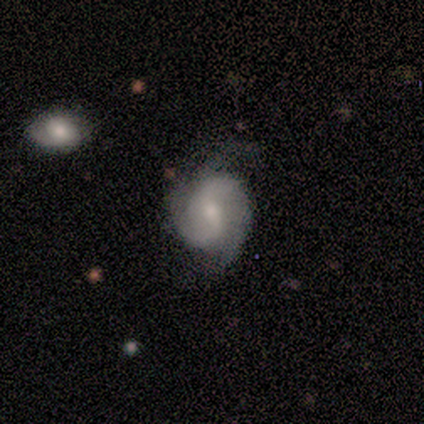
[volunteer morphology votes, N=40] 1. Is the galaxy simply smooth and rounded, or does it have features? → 85% featured or disk, 12% smooth, 2% star or artifact.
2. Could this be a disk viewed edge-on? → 97% no, 3% yes.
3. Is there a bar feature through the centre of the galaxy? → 67% weak, 24% strong, 9% no.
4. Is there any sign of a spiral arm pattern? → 97% yes, 3% no.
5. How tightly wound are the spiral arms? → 47% tight, 38% medium, 16% loose.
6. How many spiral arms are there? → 84% 2, 12% 3, 3% can't tell, 0% 1, 0% 4, 0% more than 4.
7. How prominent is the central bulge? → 58% moderate, 24% small, 9% large, 9% none, 0% dominant.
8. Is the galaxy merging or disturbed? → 44% minor disturbance, 38% none, 15% major disturbance, 3% merger.